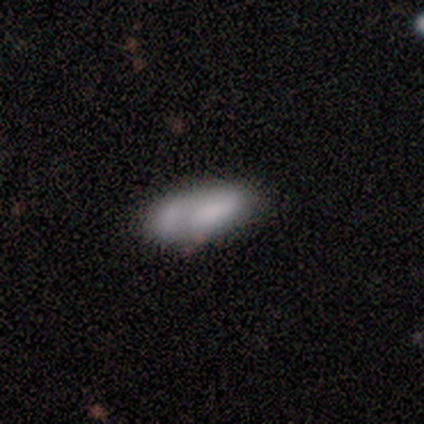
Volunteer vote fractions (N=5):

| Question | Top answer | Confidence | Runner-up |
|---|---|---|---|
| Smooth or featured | smooth | 80% | star or artifact (20%) |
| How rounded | in between | 100% | — |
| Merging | none | 50% | tied: minor disturbance (50%) |